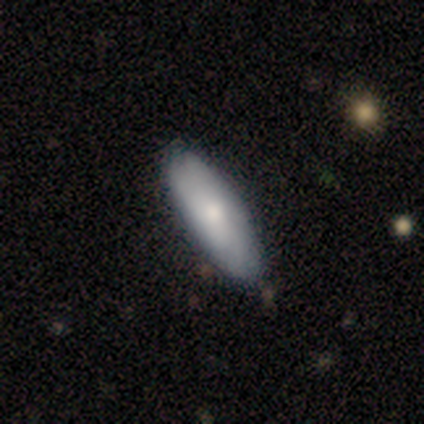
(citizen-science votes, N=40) Overall: smooth (65%; featured or disk 30%). How rounded: in between (73%). Merging: none (63%).